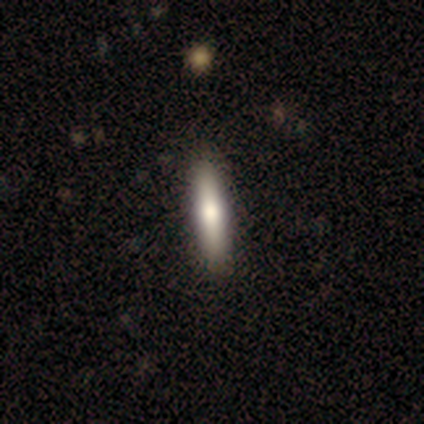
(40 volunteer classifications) Q: Smooth or featured?
A: smooth (60%); runner-up: featured or disk (38%)
Q: How rounded?
A: cigar-shaped (92%); runner-up: in between (8%)
Q: Merging?
A: none (72%); runner-up: major disturbance (3%)